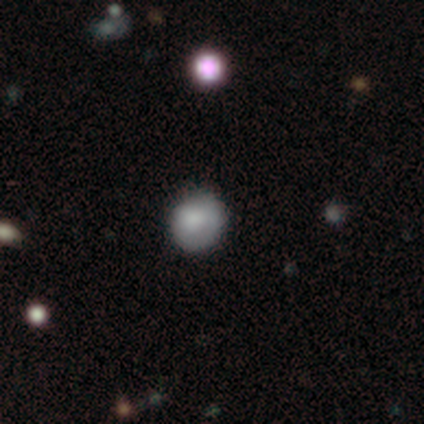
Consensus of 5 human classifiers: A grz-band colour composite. It shows a smooth galaxy with no disk features (80%) that is round (75%). Merging: none (60%).